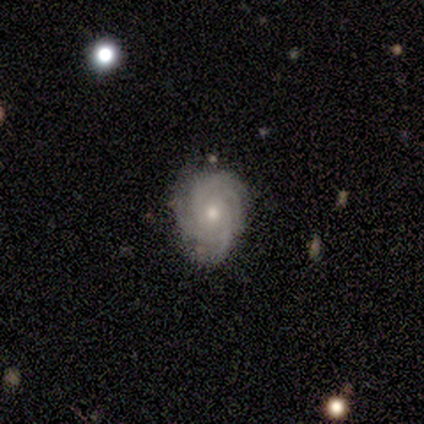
A featured or disk galaxy (100%) with no bar (60%), 3 (40%, tied with 4) tight (60%) spiral arms (100%) and a moderate central bulge (60%).

Vote fractions:
- Smooth or featured? featured or disk: 100% / smooth: 0% / star or artifact: 0%
- Edge-on disk? no: 100% / yes: 0%
- Bar? no: 60% / weak: 40% / strong: 0%
- Spiral arms? yes: 100% / no: 0%
- Spiral winding? tight: 60% / medium: 40% / loose: 0%
- Spiral arm count? 3: 40% (tied) / 4: 40% (tied) / can't tell: 20% / 1: 0% / 2: 0% / more than 4: 0%
- Bulge size? moderate: 60% / small: 40% / dominant: 0% / large: 0% / none: 0%
- Merging? none: 80% / minor disturbance: 20% / major disturbance: 0% / merger: 0%